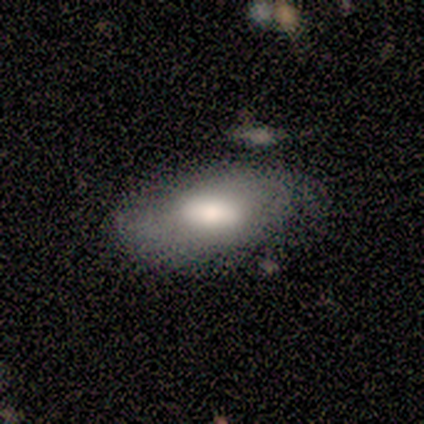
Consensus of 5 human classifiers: Smooth or featured? 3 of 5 (60%) said smooth. How rounded? 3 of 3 (100%) said in between. Merging? 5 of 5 (100%) said none.